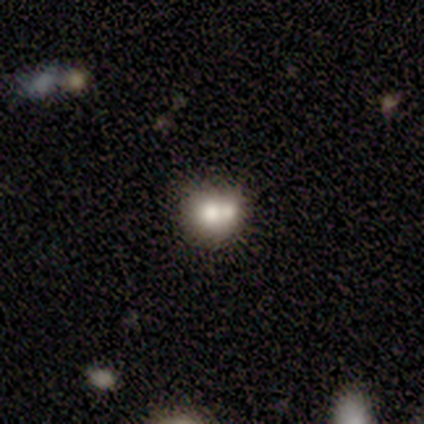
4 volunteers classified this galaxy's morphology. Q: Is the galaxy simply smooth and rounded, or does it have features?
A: smooth — 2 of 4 (50%).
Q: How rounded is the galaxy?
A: in between — 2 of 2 (100%).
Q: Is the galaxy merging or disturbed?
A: merger — 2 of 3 (67%).